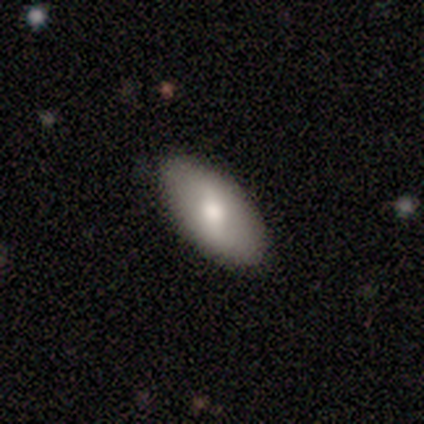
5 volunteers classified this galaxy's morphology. Smooth or featured: smooth — 60% (featured or disk — 40%)
How rounded: in between — 67% (cigar-shaped — 33%)
Merging: none — 100%